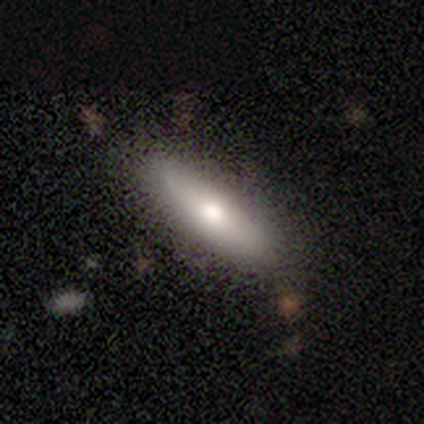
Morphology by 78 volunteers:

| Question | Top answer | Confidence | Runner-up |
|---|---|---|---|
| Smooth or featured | smooth | 69% | featured or disk (28%) |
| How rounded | in between | 50% | cigar-shaped (48%) |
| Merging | none | 43% | minor disturbance (8%) |